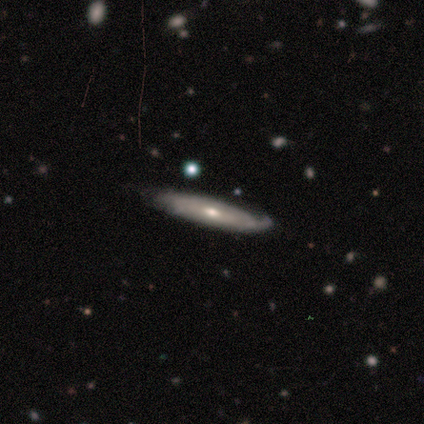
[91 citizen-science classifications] Smooth or featured? 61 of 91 (67%) said featured or disk. Edge-on disk? 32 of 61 (52%) said yes. Edge-on bulge? 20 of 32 (62%) said rounded. Merging? 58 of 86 (67%) said none.